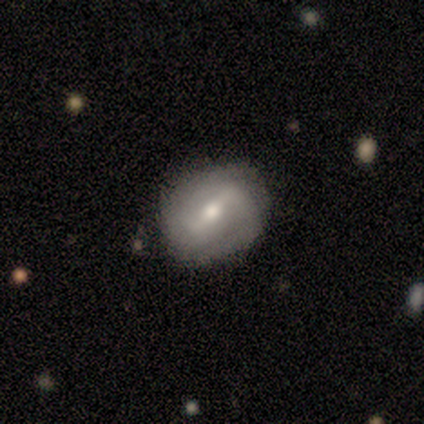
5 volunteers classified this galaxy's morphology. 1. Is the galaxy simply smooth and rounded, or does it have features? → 80% featured or disk, 20% smooth, 0% star or artifact.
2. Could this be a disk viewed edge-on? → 100% no, 0% yes.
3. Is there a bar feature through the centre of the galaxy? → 75% strong, 25% no, 0% weak.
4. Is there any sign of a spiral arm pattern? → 75% yes, 25% no.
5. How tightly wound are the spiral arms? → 67% medium, 33% tight, 0% loose.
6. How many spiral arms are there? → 67% 2, 33% can't tell, 0% 1, 0% 3, 0% 4, 0% more than 4.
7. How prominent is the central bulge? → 50% moderate (tied), 50% small (tied), 0% dominant, 0% large, 0% none.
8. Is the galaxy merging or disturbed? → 80% none, 20% minor disturbance, 0% major disturbance, 0% merger.